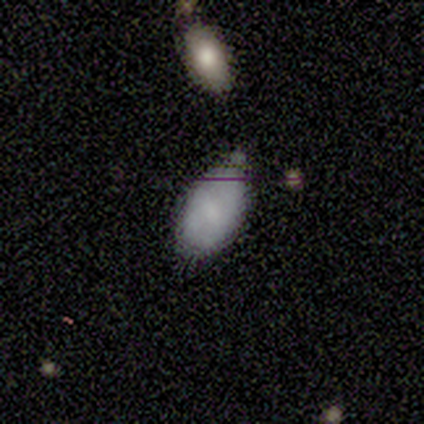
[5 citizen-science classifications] Volunteers were most divided on "merging": none: 80%, minor disturbance: 20%, major disturbance: 0%, merger: 0%. More confident: smooth or featured — smooth (100%); how rounded — in between (100%).